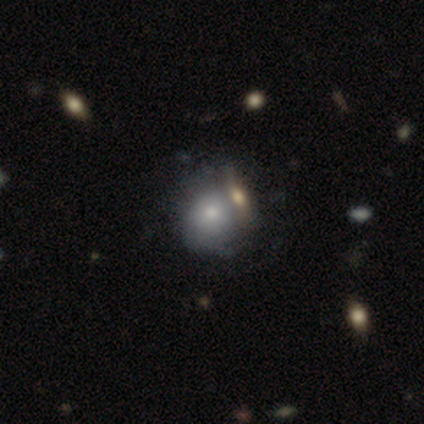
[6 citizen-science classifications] This appears to be a smooth galaxy with no disk features (50%, tied with featured or disk) that is round (100%). Merging: major disturbance (50%).